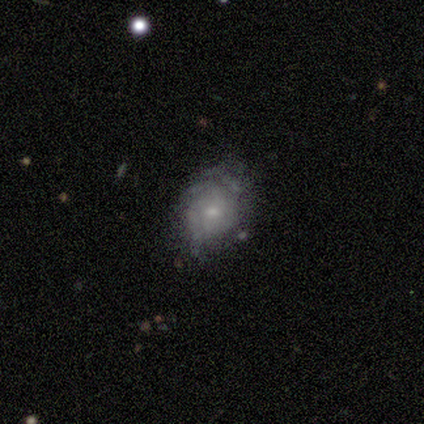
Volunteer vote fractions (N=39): Smooth or featured: featured or disk — 54% (smooth — 41%)
Edge-on disk: no — 100%
Bar: no — 95% (weak — 5%)
Spiral arms: yes — 57% (no — 43%)
Spiral winding: tight — 58% (medium — 25%)
Spiral arm count: can't tell — 58% (2 — 17%)
Bulge size: small — 71% (moderate — 14%)
Merging: none — 65% (minor disturbance — 22%)